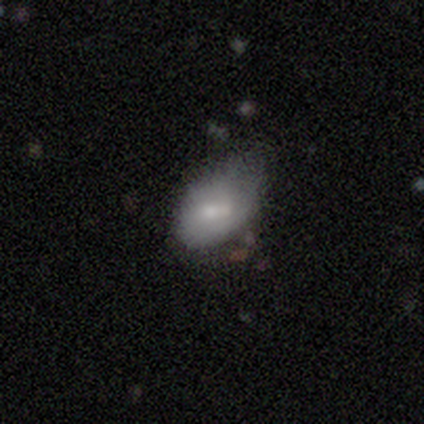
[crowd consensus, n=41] A smooth galaxy with no disk features (83%) that is in between round and cigar-shaped (94%). Merging: minor disturbance (51%).